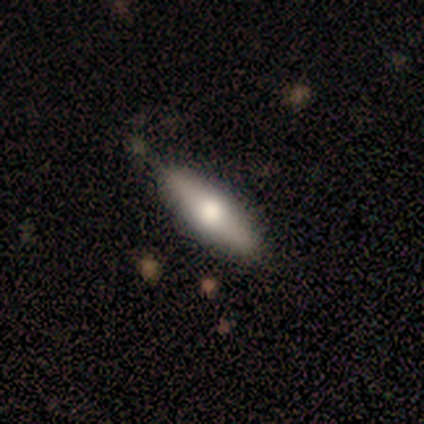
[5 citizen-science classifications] smooth_or_featured: smooth (p=0.80) [alt: featured or disk p=0.20]
how_rounded: in between (p=0.75) [alt: cigar-shaped p=0.25]
merging: none (p=0.80) [alt: minor disturbance p=0.20]